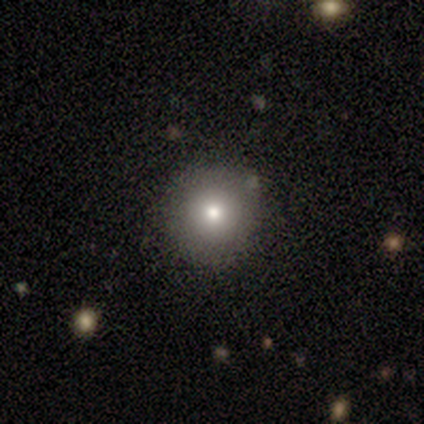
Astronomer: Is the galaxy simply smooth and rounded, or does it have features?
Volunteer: smooth — 76%.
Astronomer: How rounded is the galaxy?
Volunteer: round — 97%.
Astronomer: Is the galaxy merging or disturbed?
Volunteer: none — 74%.